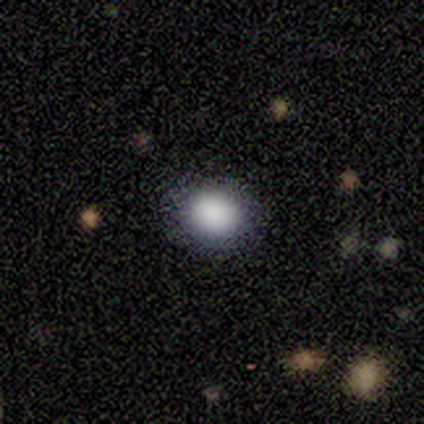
This appears to be a smooth galaxy with no disk features (80%) that is in between round and cigar-shaped (75%). Merging: none (75%).